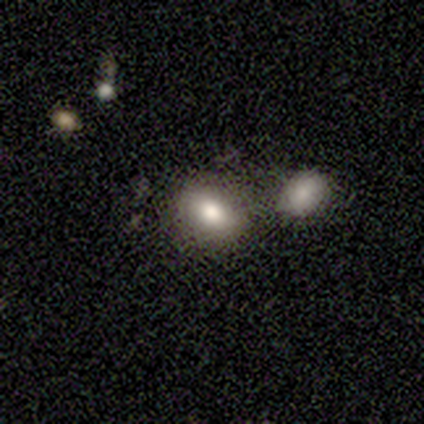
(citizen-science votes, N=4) smooth 100%, featured or disk 0%, star or artifact 0%. Down the decision tree: how rounded — in between (100%); merging — none (75%).